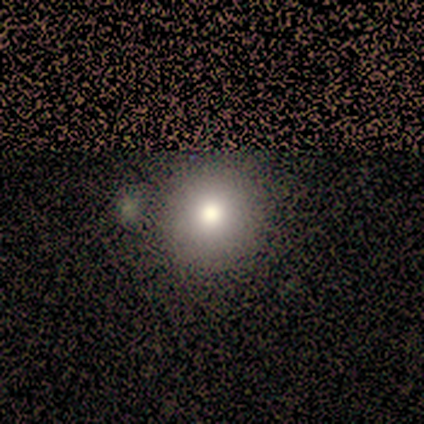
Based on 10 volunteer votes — Smooth or featured? 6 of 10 (60%) said smooth. How rounded? 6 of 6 (100%) said round. Merging? 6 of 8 (75%) said none.